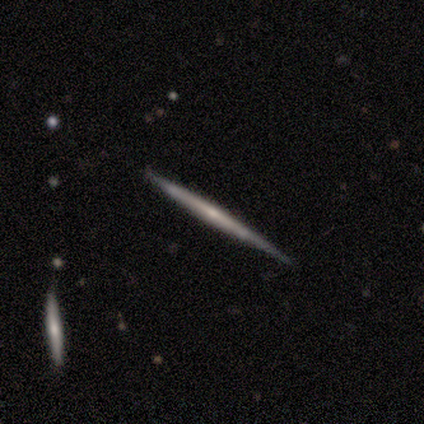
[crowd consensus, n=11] Overall: featured or disk (64%; smooth 27%). Edge-on disk: yes (100%). Edge-on bulge: rounded (57%; none 43%). Merging: none (100%).